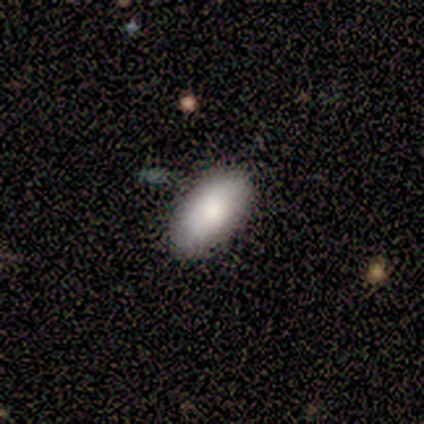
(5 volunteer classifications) A smooth galaxy with no disk features (100%) that is in between round and cigar-shaped (100%). Merging: none (80%).